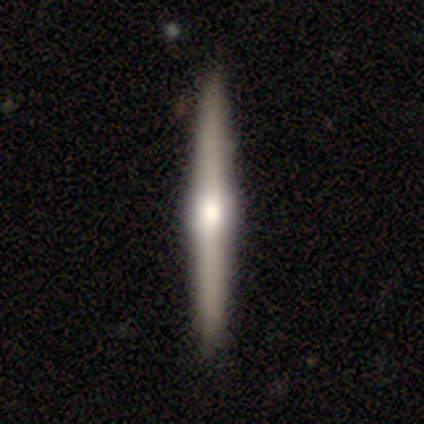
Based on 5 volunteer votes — This is likely a featured or disk galaxy (60%). It is clearly viewed edge-on (100%). Edge-on bulge: clearly rounded (100%). Merging: clearly none (100%).